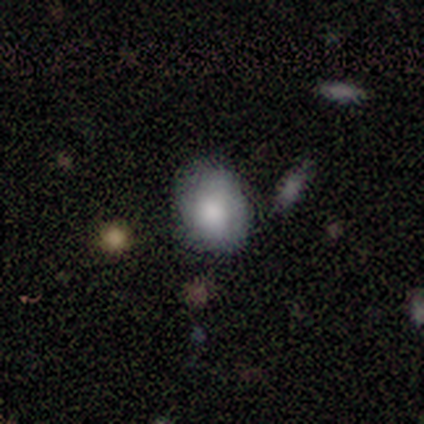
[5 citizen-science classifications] Overall: smooth (80%). How rounded: round (50%, tied with in between). Merging: none (100%).